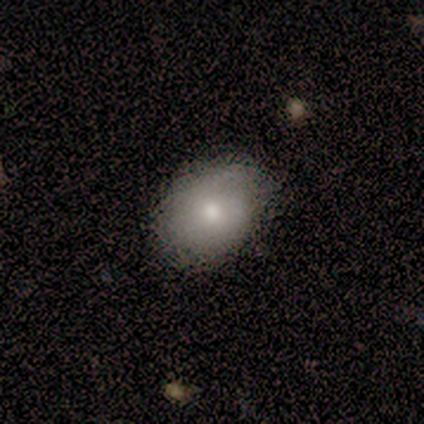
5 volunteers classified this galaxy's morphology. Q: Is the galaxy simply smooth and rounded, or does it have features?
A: smooth — 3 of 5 (60%).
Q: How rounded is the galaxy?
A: round — 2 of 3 (67%).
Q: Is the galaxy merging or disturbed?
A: none — 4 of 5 (80%).